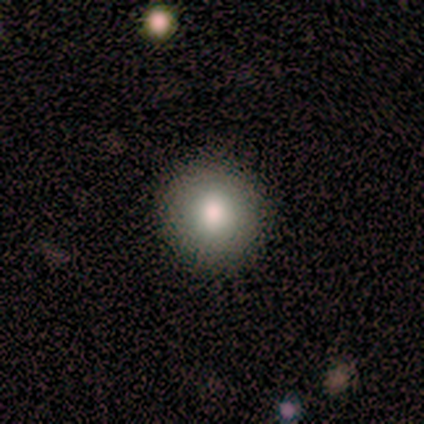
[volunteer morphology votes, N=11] A smooth galaxy with no disk features (82%) that is round (89%).

Vote fractions:
- Smooth or featured? smooth: 82% / featured or disk: 18% / star or artifact: 0%
- How rounded? round: 89% / in between: 11% / cigar-shaped: 0%
- Merging? none: 100% / minor disturbance: 0% / major disturbance: 0% / merger: 0%